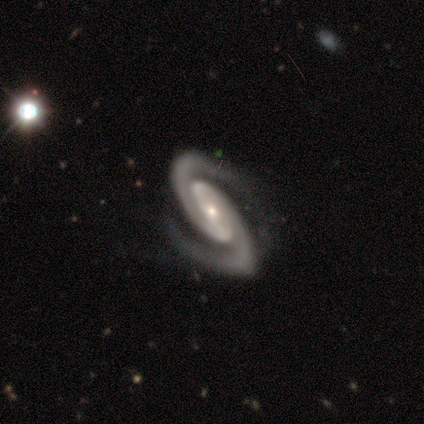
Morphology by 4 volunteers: This appears to be a featured or disk galaxy (100%) with no bar (75%), 2 (100%) tight (75%) spiral arms (100%) and a small central bulge (100%). Merging: none (75%).